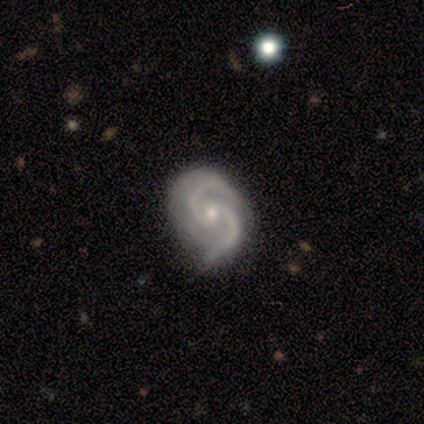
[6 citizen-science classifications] Morphology: type=featured or disk (100%); edge-on=no (100%); bar=no (67%); spiral arms=yes (100%); winding=tight (83%); arm count=2 (100%); bulge=small (83%); merging=minor disturbance (83%).